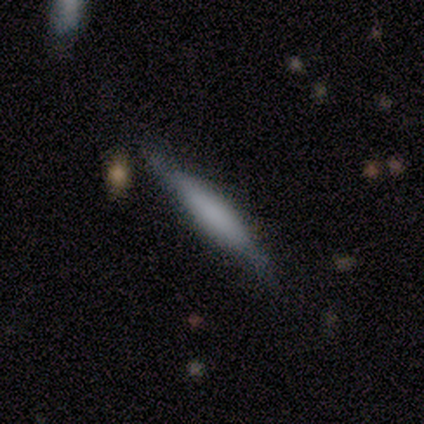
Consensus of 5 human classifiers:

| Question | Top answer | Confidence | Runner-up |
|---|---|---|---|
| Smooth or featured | smooth | 40% | tied: featured or disk (40%) |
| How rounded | cigar-shaped | 100% | — |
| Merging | none | 75% | major disturbance (25%) |